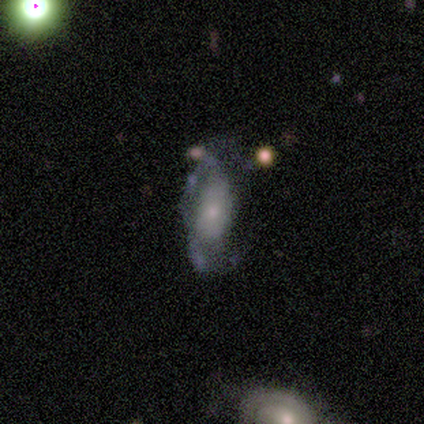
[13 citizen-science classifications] featured or disk 85%, smooth 15%, star or artifact 0%. Down the decision tree: edge-on disk — no (100%); bar — no (82%); spiral arms — yes (55%); spiral arm count — 2 (50%); spiral winding — loose (83%); bulge size — small (82%); merging — none (54%).